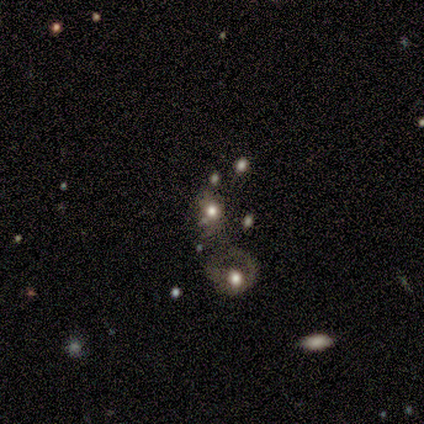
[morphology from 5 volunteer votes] Smooth or featured? 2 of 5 (40%, tied with star or artifact) said featured or disk. Edge-on disk? 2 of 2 (100%) said no. Bar? 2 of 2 (100%) said no. Spiral arms? 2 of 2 (100%) said no. Bulge size? 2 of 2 (100%) said large. Merging? 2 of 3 (67%) said major disturbance.